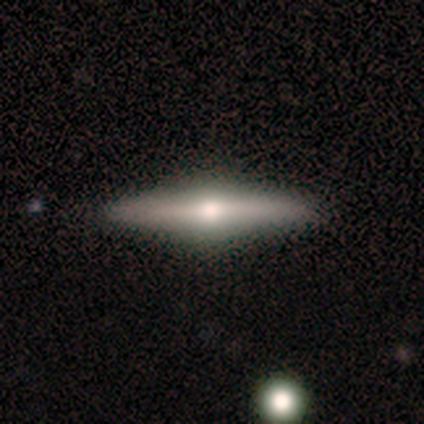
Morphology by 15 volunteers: A featured or disk galaxy (87%) viewed edge-on (92%) with a rounded central bulge (83%).

Vote fractions:
- Smooth or featured? featured or disk: 87% / smooth: 13% / star or artifact: 0%
- Edge-on disk? yes: 92% / no: 8%
- Edge-on bulge? rounded: 83% / boxy: 8% / none: 8%
- Merging? none: 87% / minor disturbance: 7% / major disturbance: 7% / merger: 0%